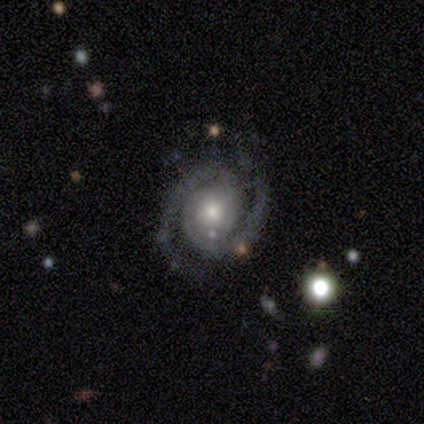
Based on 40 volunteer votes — This is clearly a featured or disk galaxy (92%). It is clearly not viewed edge-on (95%). Bar: possibly no (57%). Spiral arm pattern: clearly yes (100%). Spiral arm count: clearly 2 (86%). Spiral winding: likely tight (63%). Central bulge: likely moderate (69%). Merging: likely none (74%).